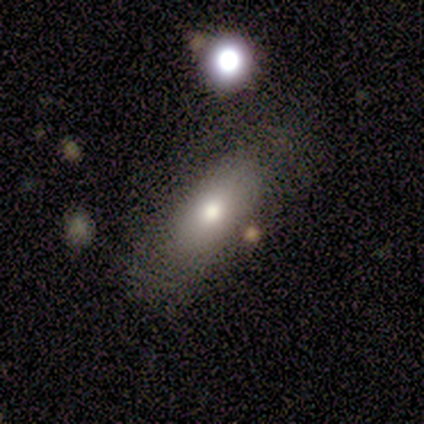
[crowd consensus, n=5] Volunteers were most divided on "merging": none: 50%, minor disturbance: 25%, merger: 25%, major disturbance: 0%. More confident: smooth or featured — smooth (80%); how rounded — in between (75%).